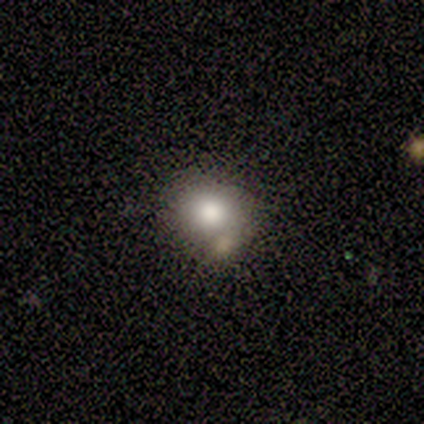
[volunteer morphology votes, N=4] Smooth or featured? 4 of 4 (100%) said smooth. How rounded? 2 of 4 (50%, tied with in between) said round. Merging? 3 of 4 (75%) said merger.